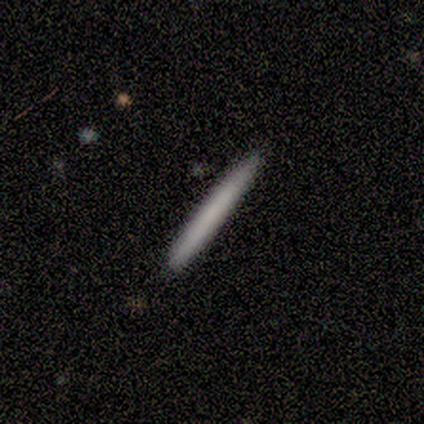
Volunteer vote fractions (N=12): smooth 67%, featured or disk 25%, star or artifact 8%. Down the decision tree: how rounded — cigar-shaped (100%); merging — none (100%).